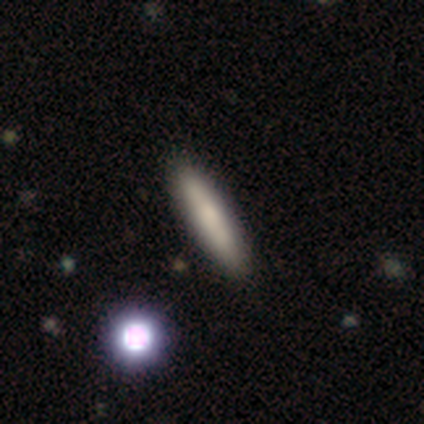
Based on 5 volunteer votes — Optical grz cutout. It shows a smooth galaxy with no disk features (80%) that is cigar-shaped (75%). Merging: none (100%).